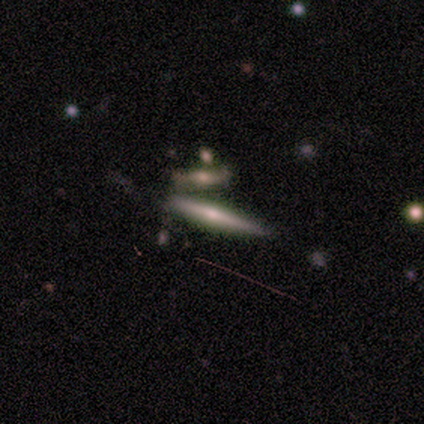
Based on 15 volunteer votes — This is likely a featured or disk galaxy (73%). It is clearly viewed edge-on (100%). Edge-on bulge: clearly rounded (82%). Merging: possibly none (57%).